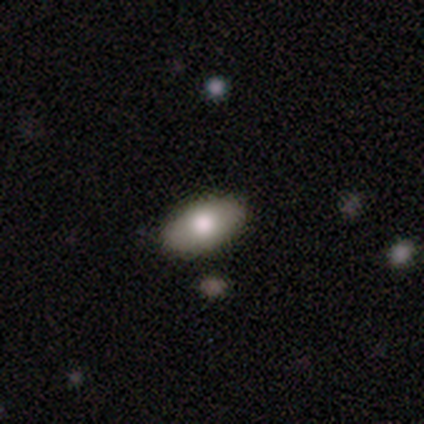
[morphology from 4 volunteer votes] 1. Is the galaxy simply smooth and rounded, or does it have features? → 75% smooth, 25% featured or disk, 0% star or artifact.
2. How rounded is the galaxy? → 100% in between, 0% round, 0% cigar-shaped.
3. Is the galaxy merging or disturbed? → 100% none, 0% minor disturbance, 0% major disturbance, 0% merger.